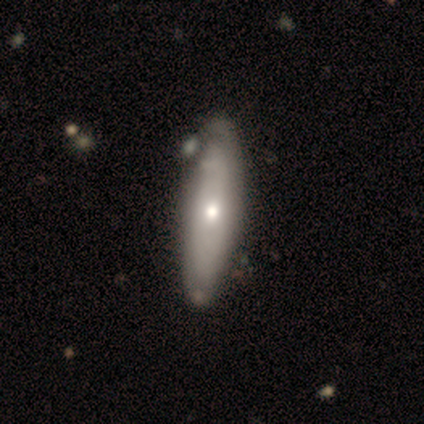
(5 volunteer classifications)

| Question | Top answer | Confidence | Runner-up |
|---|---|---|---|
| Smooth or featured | featured or disk | 60% | smooth (40%) |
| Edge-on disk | yes | 67% | no (33%) |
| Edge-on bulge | none | 50% | tied: rounded (50%) |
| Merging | none | 60% | minor disturbance (40%) |